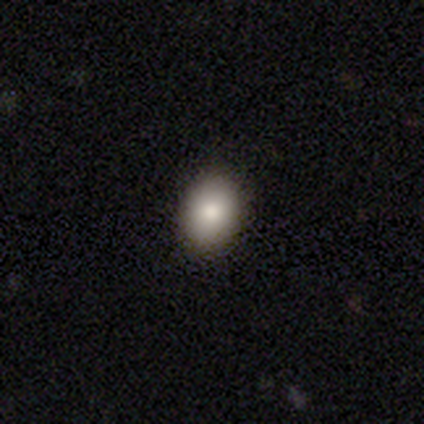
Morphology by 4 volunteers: type=smooth (75%); roundness=in between (100%); merging=none (100%).